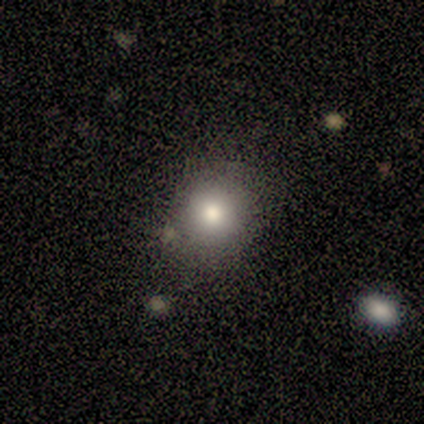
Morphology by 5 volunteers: Smooth or featured?
  - smooth: 80% *
  - star or artifact: 20%
  - featured or disk: 0%
How rounded?
  - round: 50% * (tied)
  - in between: 50% * (tied)
  - cigar-shaped: 0%
Merging?
  - none: 50% * (tied)
  - minor disturbance: 50% * (tied)
  - major disturbance: 0%
  - merger: 0%